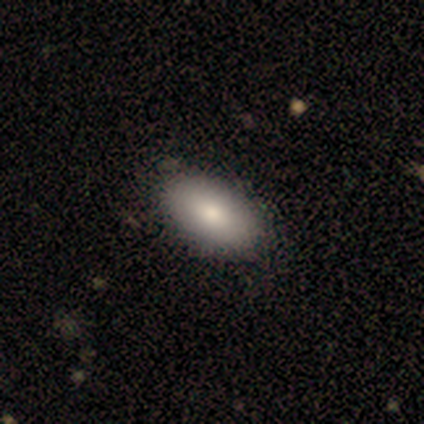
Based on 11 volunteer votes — Smooth or featured? 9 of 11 (82%) said smooth. How rounded? 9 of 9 (100%) said in between. Merging? 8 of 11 (73%) said none.